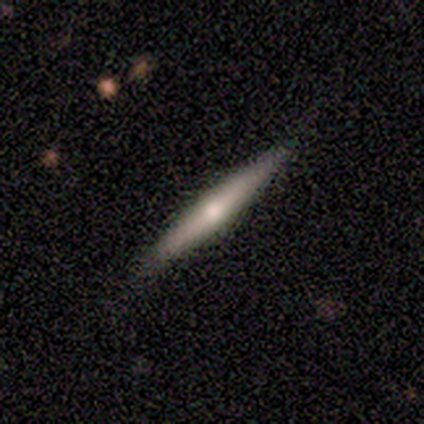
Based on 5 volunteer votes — This appears to be a smooth galaxy with no disk features (60%) that is cigar-shaped (67%). Merging: none (100%).